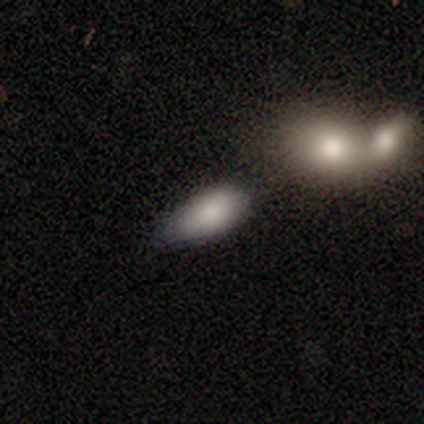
This appears to be a smooth galaxy with no disk features (80%) that is in between round and cigar-shaped (100%). Merging: none (75%).